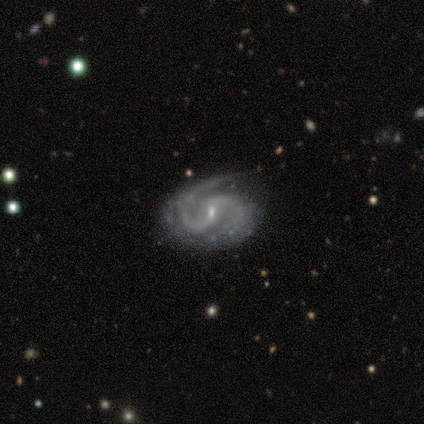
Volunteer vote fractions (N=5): Q: Smooth or featured?
A: featured or disk (100%)
Q: Edge-on disk?
A: no (100%)
Q: Bar?
A: weak (40%); tied with: no (40%)
Q: Spiral arms?
A: yes (100%)
Q: Spiral winding?
A: medium (60%); runner-up: tight (20%)
Q: Spiral arm count?
A: 2 (100%)
Q: Bulge size?
A: small (100%)
Q: Merging?
A: none (100%)